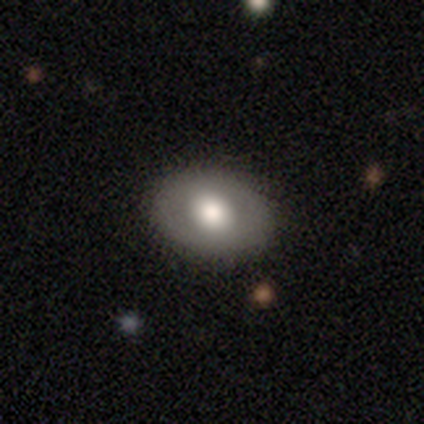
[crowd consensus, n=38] Smooth or featured? smooth (66%)
How rounded? in between (72%)
Merging? none (89%)